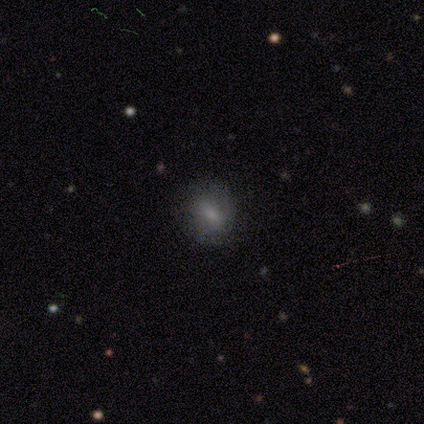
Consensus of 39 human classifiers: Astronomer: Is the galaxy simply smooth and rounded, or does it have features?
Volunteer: smooth — 74%.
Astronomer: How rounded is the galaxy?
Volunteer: in between — 52% (runner-up: round, 48%).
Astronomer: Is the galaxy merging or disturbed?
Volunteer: none — 83%.